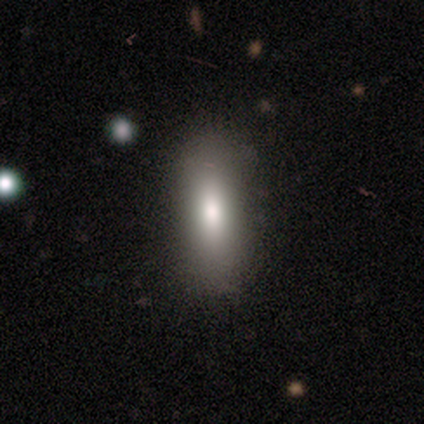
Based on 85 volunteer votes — A smooth galaxy with no disk features (75%) that is in between round and cigar-shaped (64%). Merging: none (86%).